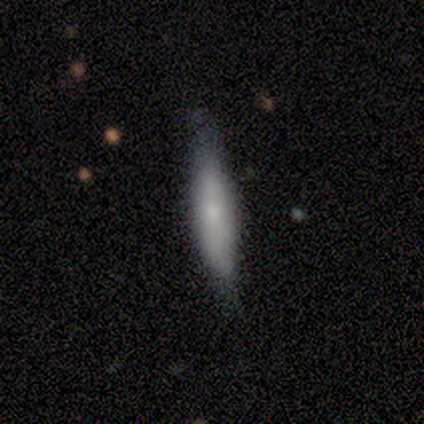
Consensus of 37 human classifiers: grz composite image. It shows a smooth galaxy with no disk features (57%) that is cigar-shaped (90%). Merging: none (75%).